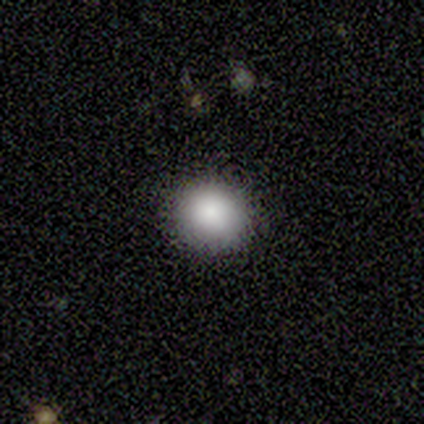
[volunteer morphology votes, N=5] type=smooth (80%); roundness=round (100%); merging=none (100%).